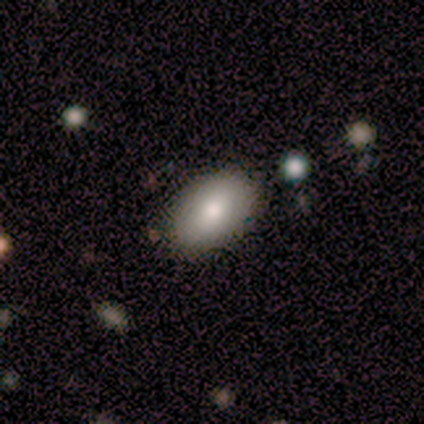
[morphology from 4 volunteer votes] smooth 100%, featured or disk 0%, star or artifact 0%. Down the decision tree: how rounded — in between (100%); merging — none (100%).